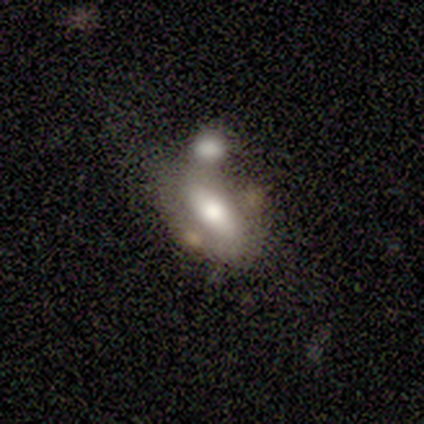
smooth-or-featured: smooth: 80% | featured or disk: 20% | star or artifact: 0%
  how-rounded: in between: 100% | round: 0% | cigar-shaped: 0%
  merging: none: 60% | merger: 40% | minor disturbance: 0% | major disturbance: 0%